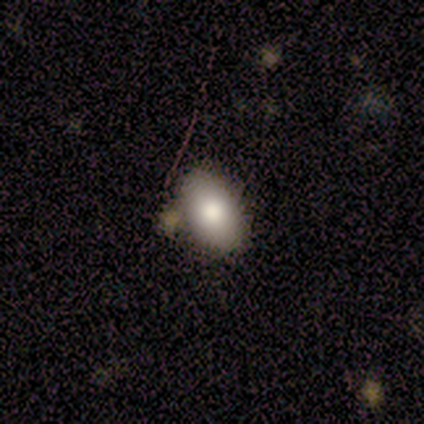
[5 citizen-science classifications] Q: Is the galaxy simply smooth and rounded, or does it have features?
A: smooth — 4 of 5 (80%).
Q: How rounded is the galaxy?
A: in between — 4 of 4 (100%).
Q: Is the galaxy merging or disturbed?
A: none — 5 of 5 (100%).